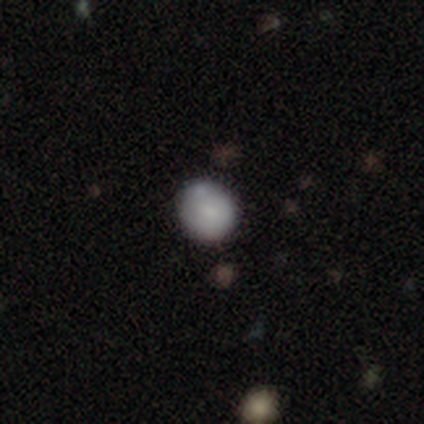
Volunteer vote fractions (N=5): Smooth or featured?
  - smooth: 40% * (tied)
  - featured or disk: 40% * (tied)
  - star or artifact: 20%
How rounded?
  - round: 100% *
  - in between: 0%
  - cigar-shaped: 0%
Merging?
  - none: 50% *
  - minor disturbance: 25%
  - major disturbance: 25%
  - merger: 0%